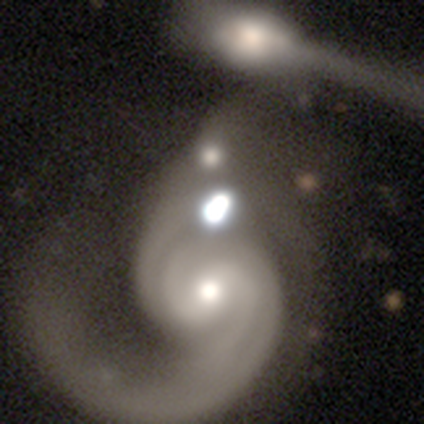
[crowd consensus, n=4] Overall: featured or disk (50%, tied with star or artifact). Edge-on disk: no (100%). Bar: strong (50%, tied with weak). Spiral arms: yes (100%). Spiral arm count: 1 (50%, tied with 2). Spiral winding: medium (50%, tied with loose). Bulge size: dominant (50%, tied with moderate). Merging: none (50%, tied with major disturbance).